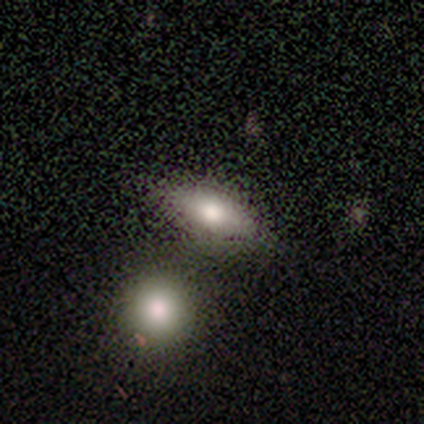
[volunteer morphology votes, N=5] Smooth or featured: smooth — 100%
How rounded: in between — 80% (cigar-shaped — 20%)
Merging: none — 40% (tied with minor disturbance — 40%)